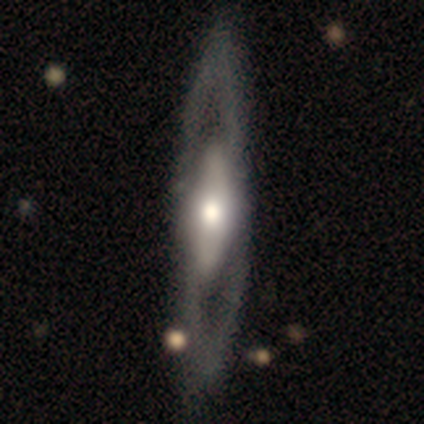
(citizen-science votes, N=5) This appears to be a featured or disk galaxy (60%) with no bar (100%), 2 (100%) medium (100%) spiral arms (50%, tied with no) and a large central bulge (50%, tied with moderate). Merging: none (60%).